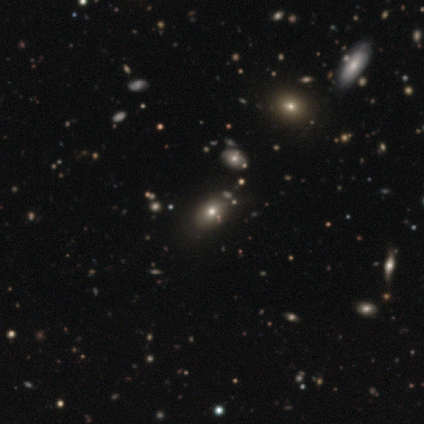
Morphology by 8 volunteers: Smooth or featured: smooth — 75% (featured or disk — 12%)
How rounded: in between — 83% (round — 17%)
Merging: none — 86% (minor disturbance — 14%)